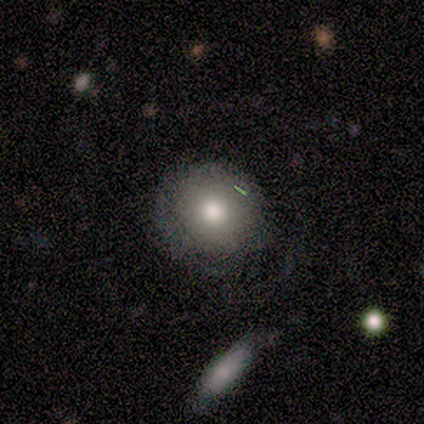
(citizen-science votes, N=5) A smooth galaxy with no disk features (80%) that is round (75%). Merging: none (60%).